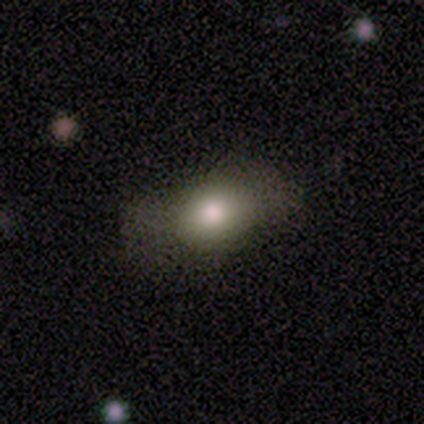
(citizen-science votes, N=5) Morphology: type=smooth (100%); roundness=in between (100%); merging=none (100%).